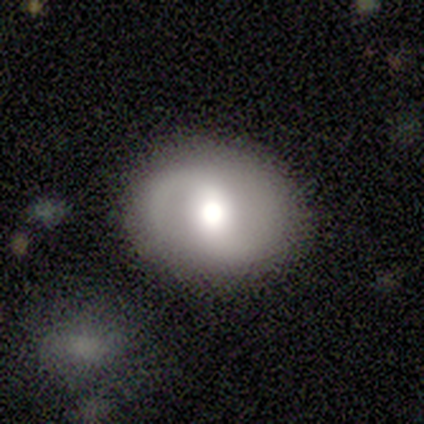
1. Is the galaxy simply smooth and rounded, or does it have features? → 75% featured or disk, 12% smooth, 12% star or artifact.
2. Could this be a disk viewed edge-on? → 100% no, 0% yes.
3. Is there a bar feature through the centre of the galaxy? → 50% no, 33% weak, 17% strong.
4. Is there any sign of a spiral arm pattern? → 100% yes, 0% no.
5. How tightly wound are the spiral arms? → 50% medium, 33% loose, 17% tight.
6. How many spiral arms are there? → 100% 2, 0% 1, 0% 3, 0% 4, 0% more than 4, 0% can't tell.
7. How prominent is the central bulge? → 67% moderate, 17% dominant, 17% large, 0% small, 0% none.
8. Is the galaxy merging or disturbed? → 100% none, 0% minor disturbance, 0% major disturbance, 0% merger.